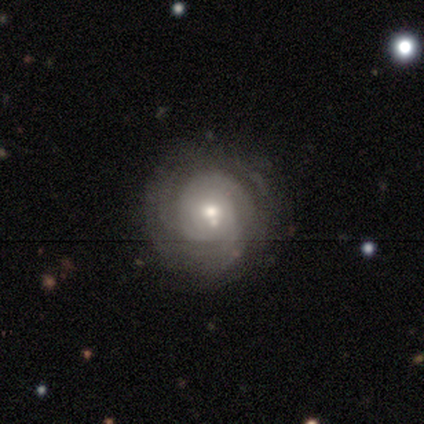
Smooth or featured: featured or disk — 100%
Edge-on disk: no — 100%
Bar: no — 100%
Spiral arms: yes — 100%
Spiral winding: tight — 80% (medium — 20%)
Spiral arm count: can't tell — 60% (2 — 20%)
Bulge size: moderate — 80% (small — 20%)
Merging: none — 60% (minor disturbance — 20%)